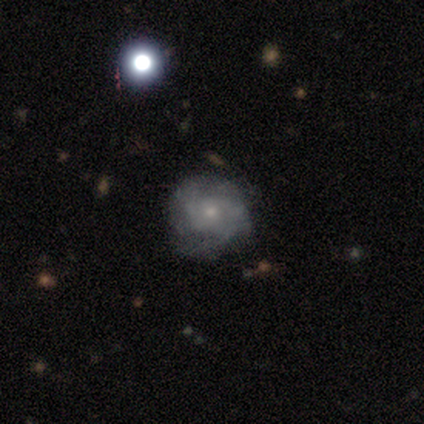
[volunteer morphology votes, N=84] featured or disk 63%, smooth 29%, star or artifact 8%. Down the decision tree: edge-on disk — no (96%); bar — no (96%); spiral arms — yes (78%); spiral arm count — can't tell (38%); spiral winding — tight (48%); bulge size — small (73%); merging — none (71%).